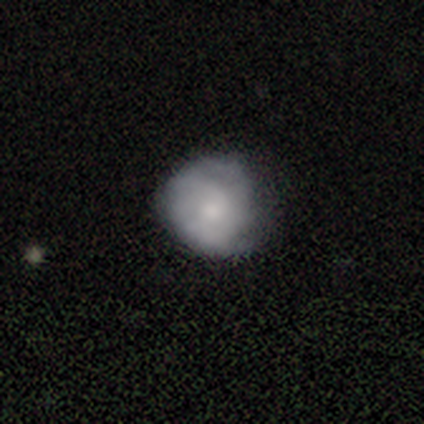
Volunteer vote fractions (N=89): Volunteers were most divided on "smooth or featured": smooth: 58%, featured or disk: 37%, star or artifact: 4%. More confident: how rounded — round (85%); merging — none (61%).